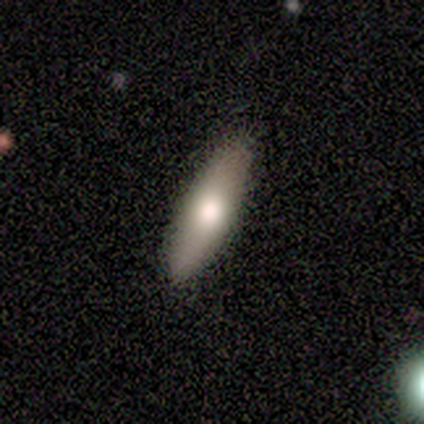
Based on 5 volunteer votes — Smooth or featured?
  - smooth: 100% *
  - featured or disk: 0%
  - star or artifact: 0%
How rounded?
  - in between: 60% *
  - cigar-shaped: 40%
  - round: 0%
Merging?
  - none: 100% *
  - minor disturbance: 0%
  - major disturbance: 0%
  - merger: 0%